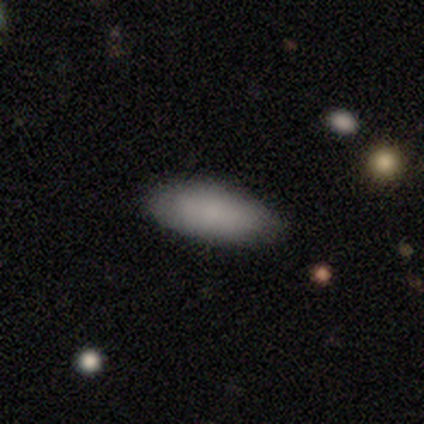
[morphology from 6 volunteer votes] Volunteers were most divided on "smooth or featured": smooth: 67%, star or artifact: 33%, featured or disk: 0%. More confident: how rounded — in between (100%); merging — none (100%).